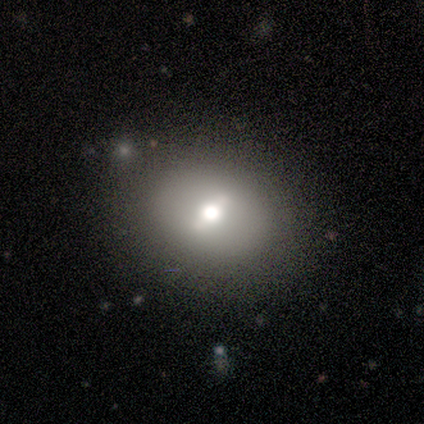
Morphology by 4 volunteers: Overall: smooth (50%, tied with featured or disk). How rounded: round (50%, tied with in between). Merging: none (100%).